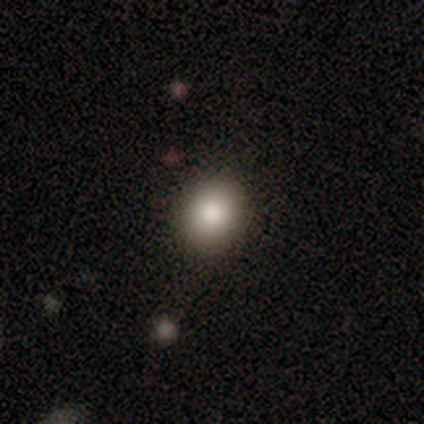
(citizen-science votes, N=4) This is likely a smooth galaxy (75%). How rounded: likely round (67%). Merging: clearly none (100%).